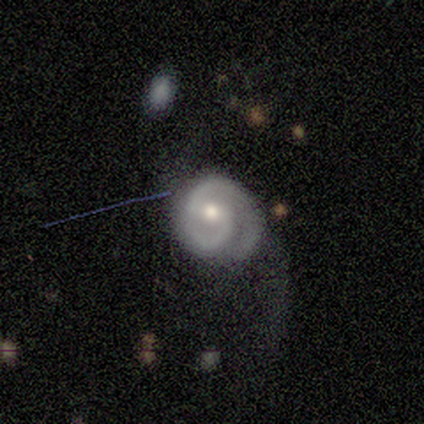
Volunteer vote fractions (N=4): Smooth or featured: featured or disk — 75% (star or artifact — 25%)
Edge-on disk: no — 100%
Bar: weak — 67% (no — 33%)
Spiral arms: yes — 100%
Spiral winding: tight — 67% (medium — 33%)
Spiral arm count: 2 — 100%
Bulge size: moderate — 100%
Merging: minor disturbance — 67% (major disturbance — 33%)